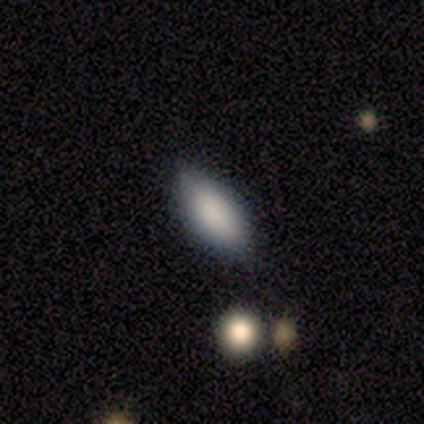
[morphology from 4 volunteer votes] smooth 100%, featured or disk 0%, star or artifact 0%. Down the decision tree: how rounded — in between (100%); merging — none (100%).